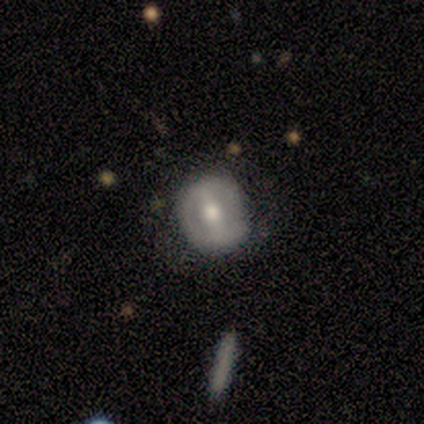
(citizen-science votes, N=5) Smooth or featured? 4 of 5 (80%) said featured or disk. Edge-on disk? 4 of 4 (100%) said no. Bar? 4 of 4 (100%) said strong. Spiral arms? 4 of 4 (100%) said no. Bulge size? 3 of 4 (75%) said moderate. Merging? 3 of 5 (60%) said minor disturbance.